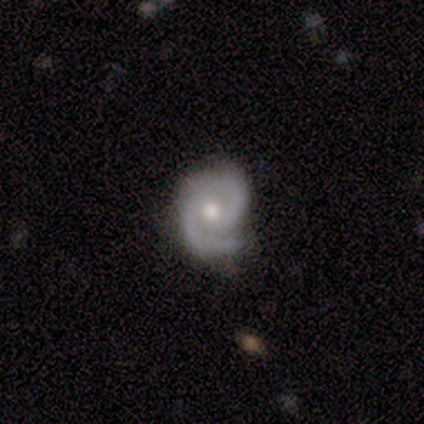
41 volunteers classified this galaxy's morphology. Smooth or featured: featured or disk — 93% (star or artifact — 5%)
Edge-on disk: no — 100%
Bar: no — 71% (weak — 24%)
Spiral arms: yes — 100%
Spiral winding: tight — 47% (medium — 37%)
Spiral arm count: 2 — 95% (1 — 3%)
Bulge size: moderate — 74% (small — 13%)
Merging: none — 69% (minor disturbance — 23%)